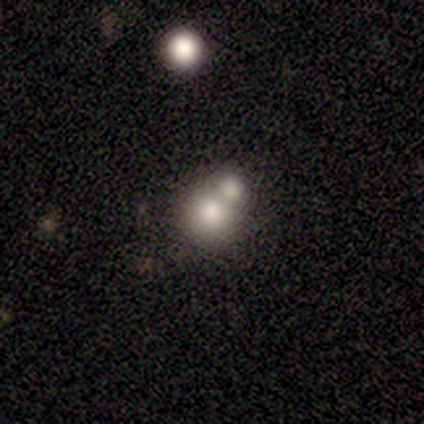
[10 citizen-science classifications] smooth 60%, featured or disk 20%, star or artifact 20%. Down the decision tree: how rounded — round (100%); merging — merger (62%).